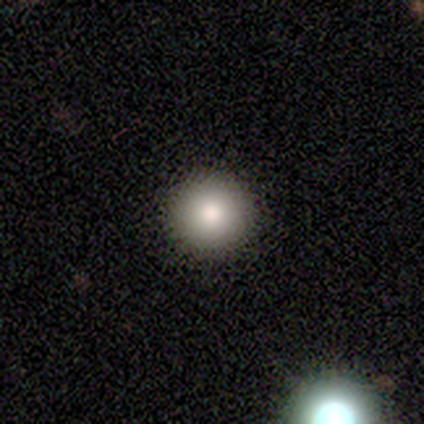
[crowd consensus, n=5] Q: Smooth or featured?
A: smooth (100%)
Q: How rounded?
A: round (100%)
Q: Merging?
A: none (100%)